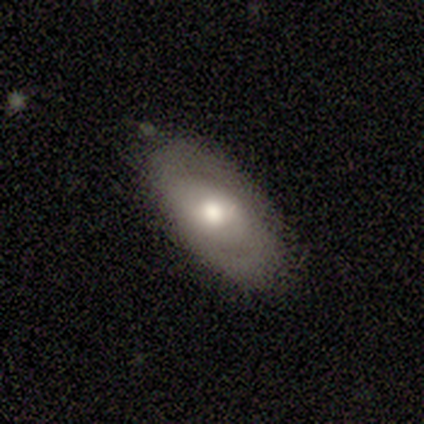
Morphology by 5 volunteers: Volunteers were most divided on "spiral arms": no: 67%, yes: 33%. More confident: bar — no (100%); smooth or featured — featured or disk (80%); merging — none (80%); edge-on disk — no (75%); bulge size — moderate (67%).